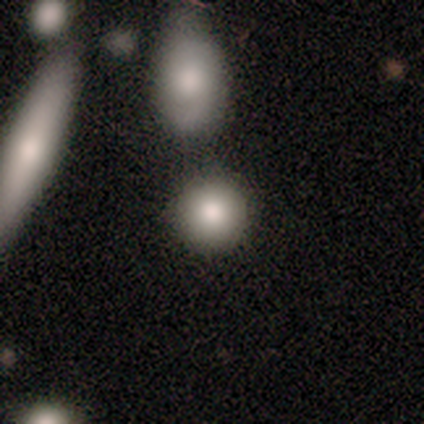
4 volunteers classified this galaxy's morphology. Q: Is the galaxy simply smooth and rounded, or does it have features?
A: smooth — 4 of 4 (100%).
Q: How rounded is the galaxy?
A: round — 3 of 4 (75%).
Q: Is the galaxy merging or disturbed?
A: none — 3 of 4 (75%).